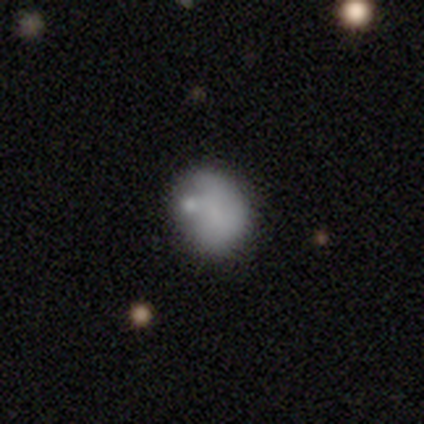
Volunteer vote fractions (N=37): A smooth galaxy with no disk features (59%) that is round (50%). Merging: none (35%, tied with minor disturbance).